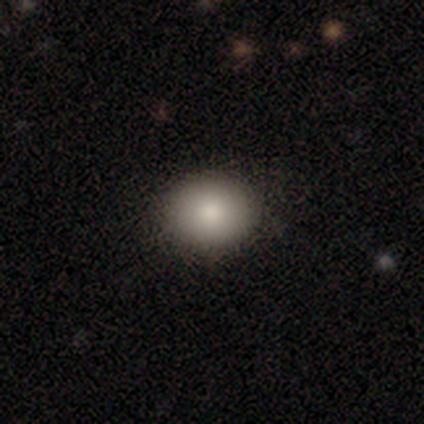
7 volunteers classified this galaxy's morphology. Q: Smooth or featured?
A: smooth (100%)
Q: How rounded?
A: round (71%); runner-up: in between (29%)
Q: Merging?
A: none (100%)